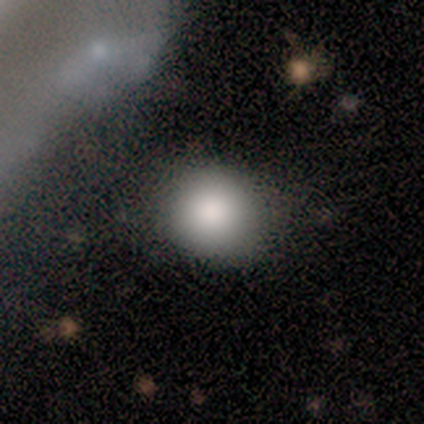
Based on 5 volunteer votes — Smooth or featured: smooth — 100%
How rounded: round — 80% (in between — 20%)
Merging: none — 80% (merger — 20%)